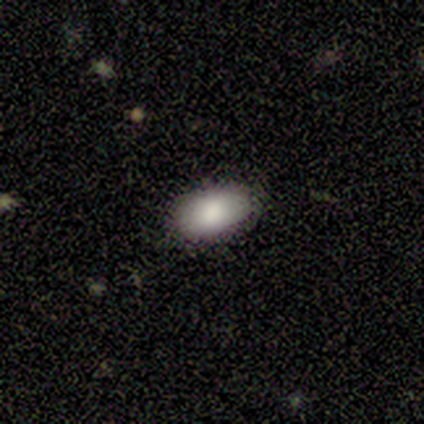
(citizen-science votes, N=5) Morphology: type=smooth (100%); roundness=round (60%); merging=none (100%).